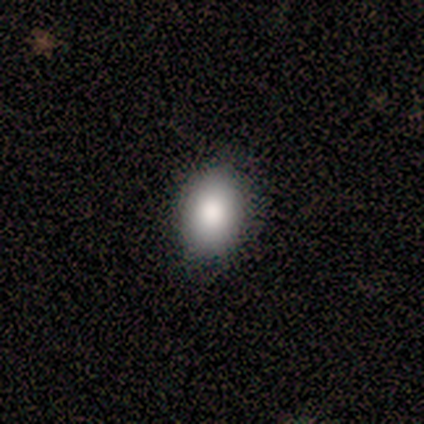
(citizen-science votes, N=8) smooth 100%, featured or disk 0%, star or artifact 0%. Down the decision tree: how rounded — in between (88%); merging — none (100%).